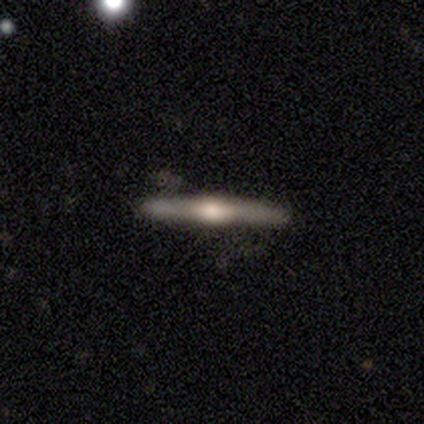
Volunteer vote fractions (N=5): Smooth or featured?
  - featured or disk: 100% *
  - smooth: 0%
  - star or artifact: 0%
Edge-on disk?
  - yes: 100% *
  - no: 0%
Edge-on bulge?
  - rounded: 100% *
  - boxy: 0%
  - none: 0%
Merging?
  - none: 80% *
  - minor disturbance: 20%
  - major disturbance: 0%
  - merger: 0%